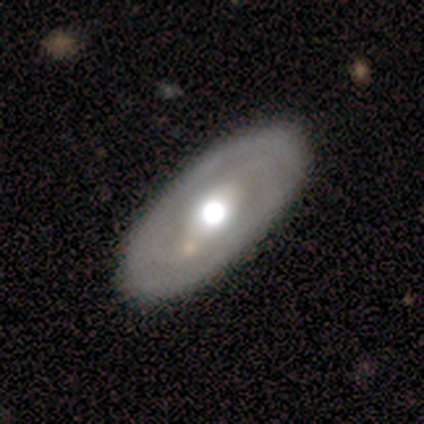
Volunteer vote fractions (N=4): Overall: featured or disk (75%). Edge-on disk: no (67%; yes 33%). Bar: strong (50%, tied with weak). Spiral arms: yes (50%, tied with no). Spiral arm count: 2 (100%). Spiral winding: medium (100%). Bulge size: moderate (100%). Merging: none (75%).